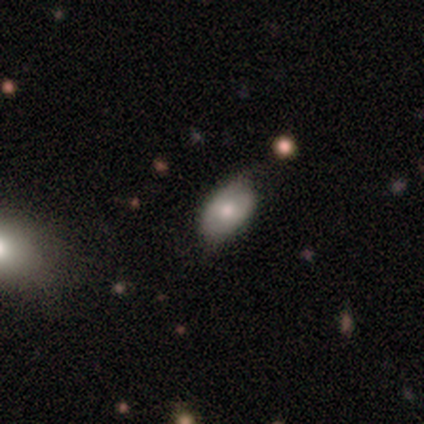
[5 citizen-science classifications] This appears to be a smooth galaxy with no disk features (80%) that is in between round and cigar-shaped (100%). Merging: none (50%, tied with minor disturbance).